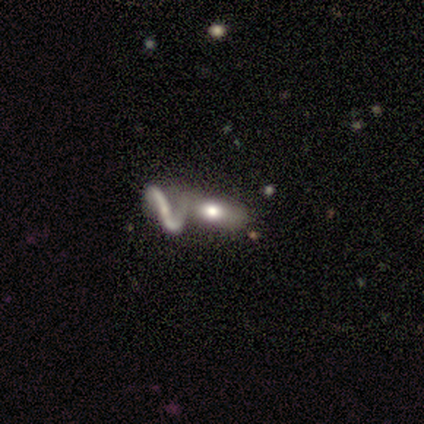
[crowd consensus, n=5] Smooth or featured? smooth (60%)
How rounded? in between (67%)
Merging? merger (75%)